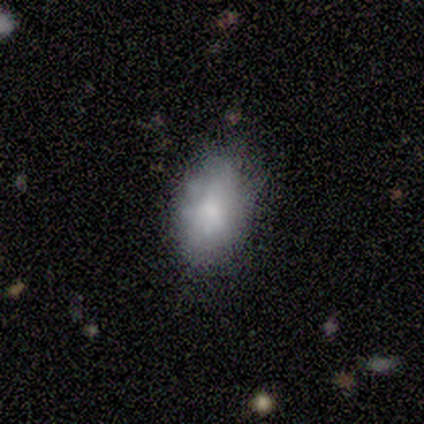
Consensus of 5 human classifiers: Morphology: type=smooth (80%); roundness=in between (100%); merging=minor disturbance (50%).